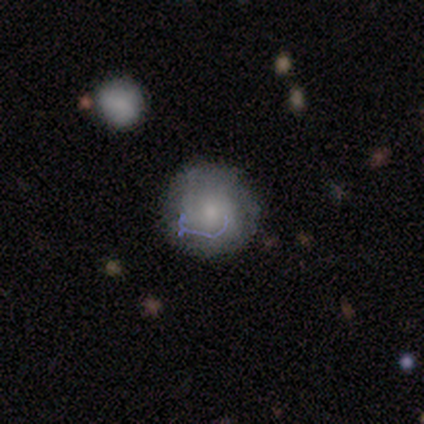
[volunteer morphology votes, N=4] smooth 50% (tied), featured or disk 50% (tied), star or artifact 0%. Down the decision tree: how rounded — round (100%); merging — none (50%).